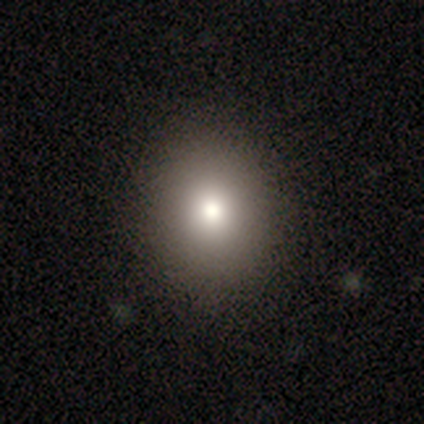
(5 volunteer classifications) A smooth galaxy with no disk features (60%) that is round (67%).

Vote fractions:
- Smooth or featured? smooth: 60% / featured or disk: 20% / star or artifact: 20%
- How rounded? round: 67% / in between: 33% / cigar-shaped: 0%
- Merging? none: 100% / minor disturbance: 0% / major disturbance: 0% / merger: 0%